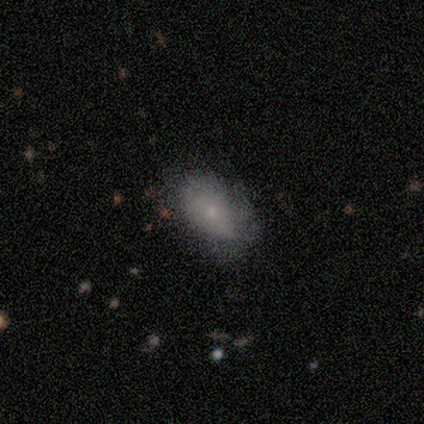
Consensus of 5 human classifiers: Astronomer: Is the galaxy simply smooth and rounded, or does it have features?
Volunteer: smooth — 60%.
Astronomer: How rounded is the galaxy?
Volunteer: in between — 100%.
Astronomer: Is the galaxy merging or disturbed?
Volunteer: none — 100%.